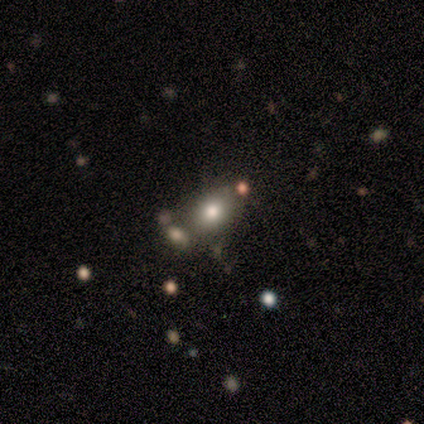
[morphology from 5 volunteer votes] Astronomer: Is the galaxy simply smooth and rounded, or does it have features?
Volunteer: smooth — 60% (runner-up: star or artifact, 40%).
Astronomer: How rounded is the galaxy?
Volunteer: round — 67%.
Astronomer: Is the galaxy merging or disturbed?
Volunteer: none — 67%.